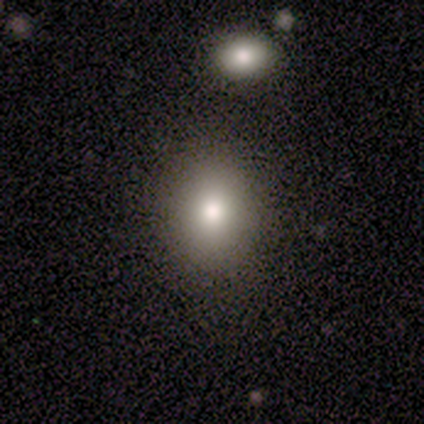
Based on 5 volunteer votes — Q: Smooth or featured?
A: smooth (80%); runner-up: star or artifact (20%)
Q: How rounded?
A: round (100%)
Q: Merging?
A: none (50%); tied with: minor disturbance (50%)